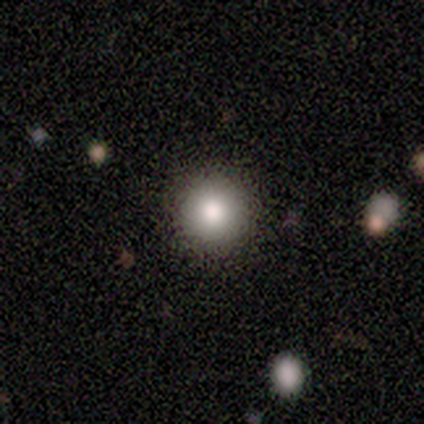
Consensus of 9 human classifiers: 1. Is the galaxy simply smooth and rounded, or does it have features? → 100% smooth, 0% featured or disk, 0% star or artifact.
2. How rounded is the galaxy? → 100% round, 0% in between, 0% cigar-shaped.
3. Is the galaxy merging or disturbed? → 100% none, 0% minor disturbance, 0% major disturbance, 0% merger.